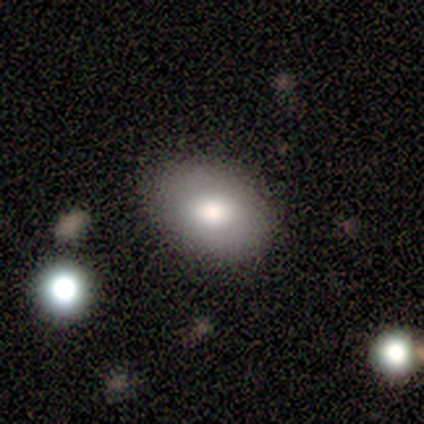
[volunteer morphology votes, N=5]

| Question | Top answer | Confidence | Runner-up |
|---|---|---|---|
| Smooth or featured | smooth | 100% | — |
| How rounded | in between | 80% | round (20%) |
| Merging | none | 80% | minor disturbance (20%) |